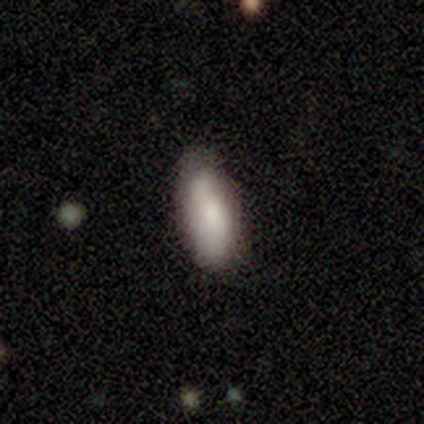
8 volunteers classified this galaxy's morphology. Smooth or featured? 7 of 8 (88%) said smooth. How rounded? 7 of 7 (100%) said in between. Merging? 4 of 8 (50%) said none.